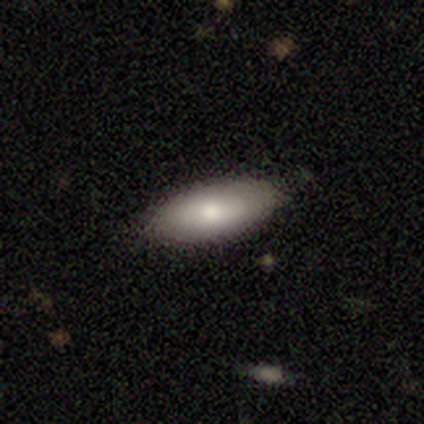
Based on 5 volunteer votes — This appears to be a featured or disk galaxy (60%) with no bar (100%), no spiral arms (100%) and a small central bulge (50%, tied with none). Merging: none (60%).